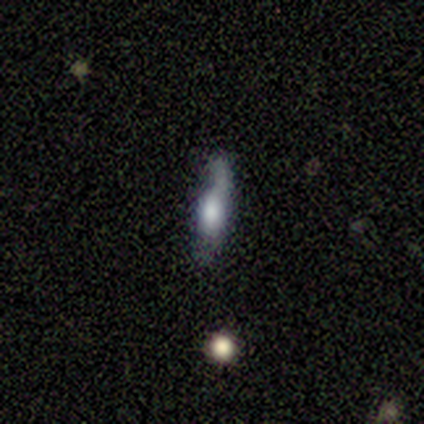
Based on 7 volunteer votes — This is possibly a featured or disk galaxy (57%). It is likely viewed edge-on (75%). Edge-on bulge: likely boxy (67%). Merging: possibly none (57%).